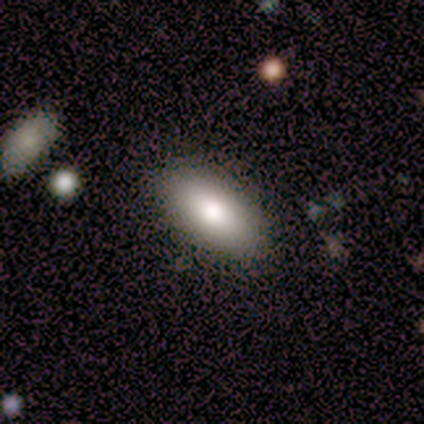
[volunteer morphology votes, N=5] Smooth or featured?
  - smooth: 100% *
  - featured or disk: 0%
  - star or artifact: 0%
How rounded?
  - in between: 100% *
  - round: 0%
  - cigar-shaped: 0%
Merging?
  - none: 100% *
  - minor disturbance: 0%
  - major disturbance: 0%
  - merger: 0%